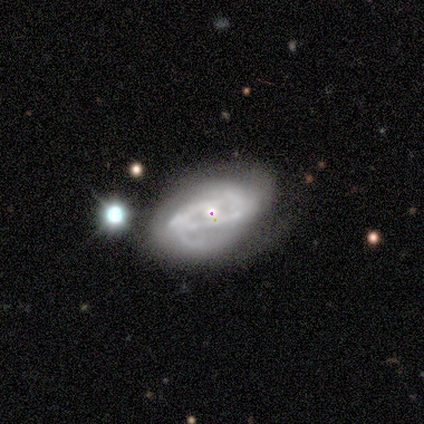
Q: Smooth or featured?
A: featured or disk (87%); runner-up: smooth (11%)
Q: Edge-on disk?
A: no (100%)
Q: Bar?
A: no (61%); runner-up: weak (21%)
Q: Spiral arms?
A: yes (88%); runner-up: no (12%)
Q: Spiral winding?
A: tight (38%); tied with: medium (38%)
Q: Spiral arm count?
A: 2 (52%); runner-up: can't tell (31%)
Q: Bulge size?
A: small (48%); runner-up: moderate (33%)
Q: Merging?
A: minor disturbance (41%); runner-up: none (35%)